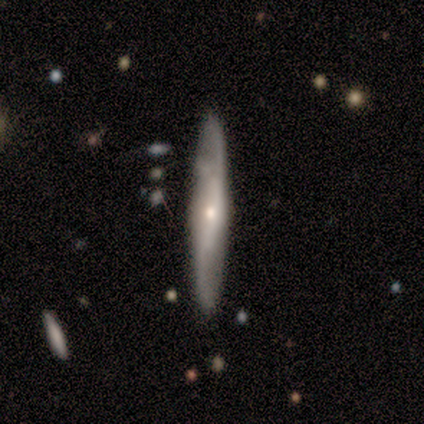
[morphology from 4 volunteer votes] smooth 50% (tied), featured or disk 50% (tied), star or artifact 0%. Down the decision tree: how rounded — cigar-shaped (100%); merging — none (75%).